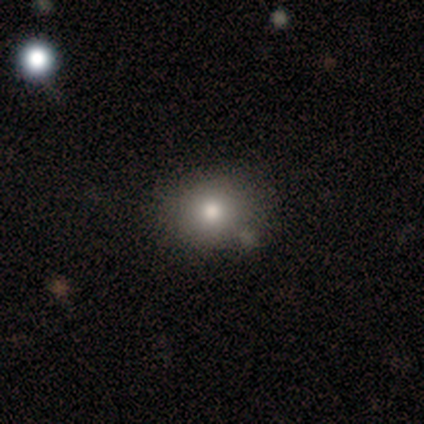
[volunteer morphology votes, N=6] smooth_or_featured: smooth (p=0.67) [alt: featured or disk p=0.33]
how_rounded: round (p=0.75) [alt: in between p=0.25]
merging: none (p=0.67) [alt: minor disturbance p=0.17]